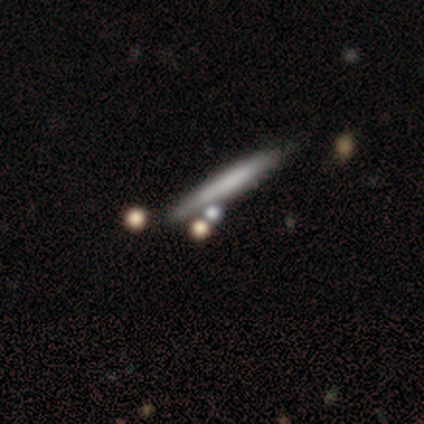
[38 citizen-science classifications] smooth 61%, featured or disk 34%, star or artifact 5%. Down the decision tree: how rounded — cigar-shaped (96%); merging — none (78%).